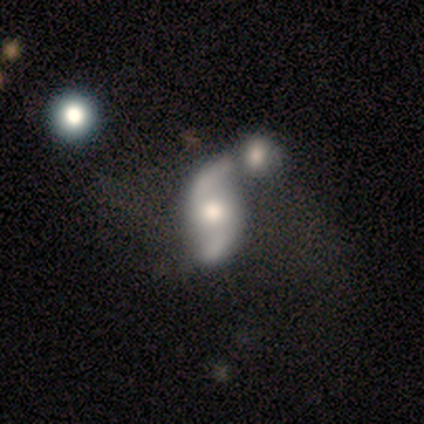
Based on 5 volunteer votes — This appears to be a featured or disk galaxy (80%) with no bar (75%), 2 (100%) medium (50%, tied with loose) spiral arms (100%) and a moderate central bulge (50%, tied with small). Merging: minor disturbance (60%).